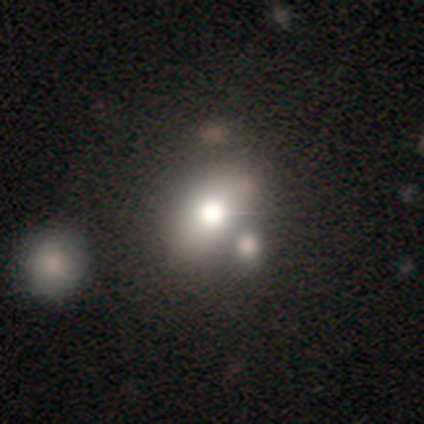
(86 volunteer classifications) A smooth galaxy with no disk features (60%) that is round (48%). Merging: none (50%).